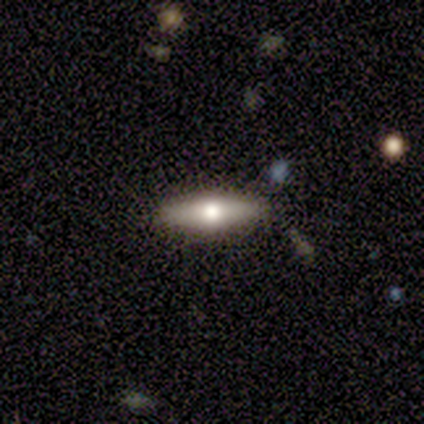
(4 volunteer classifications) A smooth galaxy with no disk features (75%) that is in between round and cigar-shaped (67%). Merging: none (75%).